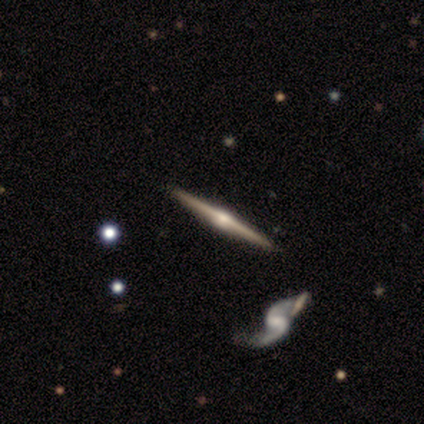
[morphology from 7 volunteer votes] Smooth or featured?
  - featured or disk: 86% *
  - smooth: 14%
  - star or artifact: 0%
Edge-on disk?
  - yes: 83% *
  - no: 17%
Edge-on bulge?
  - rounded: 80% *
  - boxy: 20%
  - none: 0%
Merging?
  - none: 100% *
  - minor disturbance: 0%
  - major disturbance: 0%
  - merger: 0%